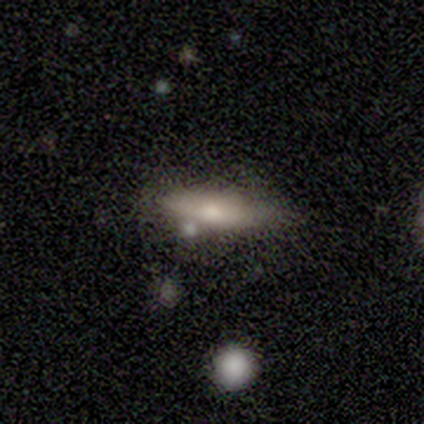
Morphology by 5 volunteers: Smooth or featured?
  - smooth: 60% *
  - featured or disk: 40%
  - star or artifact: 0%
How rounded?
  - cigar-shaped: 67% *
  - in between: 33%
  - round: 0%
Merging?
  - none: 60% *
  - minor disturbance: 40%
  - major disturbance: 0%
  - merger: 0%